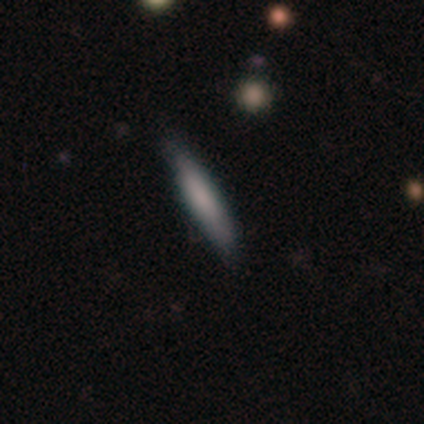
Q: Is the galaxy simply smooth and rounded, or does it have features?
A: smooth — 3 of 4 (75%).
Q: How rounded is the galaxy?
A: cigar-shaped — 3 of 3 (100%).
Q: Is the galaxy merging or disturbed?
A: none — 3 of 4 (75%).